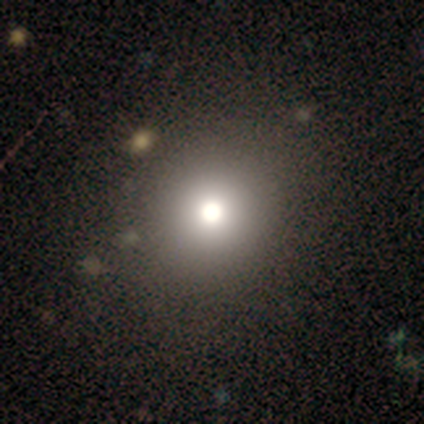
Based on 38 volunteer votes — smooth_or_featured: smooth (p=0.68) [alt: star or artifact p=0.18]
how_rounded: round (p=0.81) [alt: in between p=0.19]
merging: none (p=0.68) [alt: minor disturbance p=0.03]